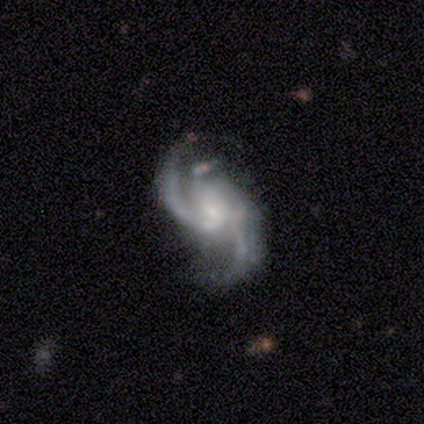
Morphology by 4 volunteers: featured or disk 100%, smooth 0%, star or artifact 0%. Down the decision tree: edge-on disk — no (100%); bar — no (75%); spiral arms — yes (100%); spiral arm count — 2 (50%, tied with 3); spiral winding — loose (75%); bulge size — small (100%); merging — none (100%).